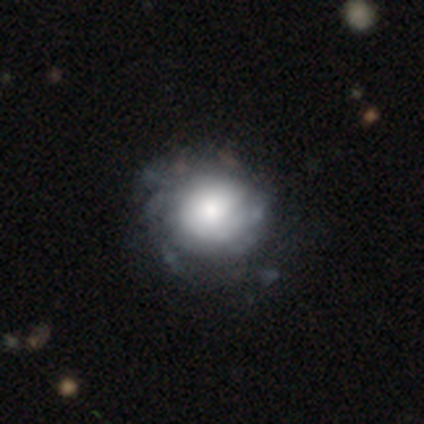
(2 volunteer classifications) Morphology: type=featured or disk (100%); edge-on=no (100%); bar=weak (50%, tied with no); spiral arms=no (100%); bulge=large (50%, tied with small); merging=none (50%, tied with major disturbance).